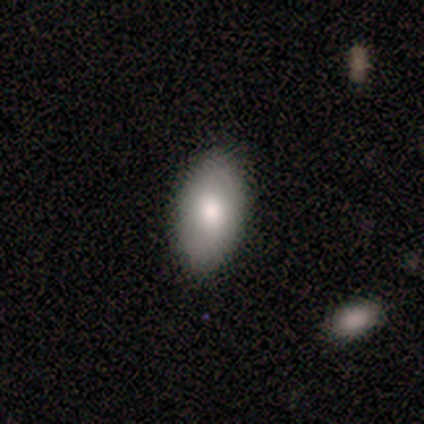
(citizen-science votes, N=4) smooth_or_featured: smooth (p=0.75) [alt: featured or disk p=0.25]
how_rounded: in between (p=1.00)
merging: none (p=1.00)